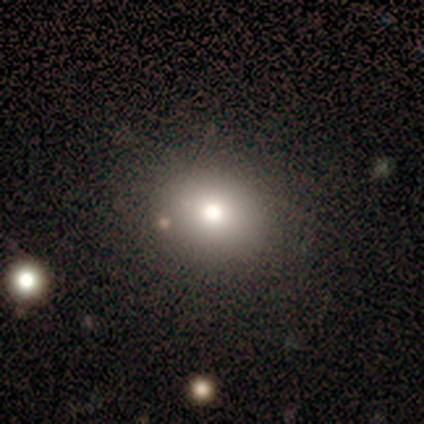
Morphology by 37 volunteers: Smooth or featured? 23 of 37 (62%) said smooth. How rounded? 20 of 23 (87%) said round. Merging? 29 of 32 (91%) said none.